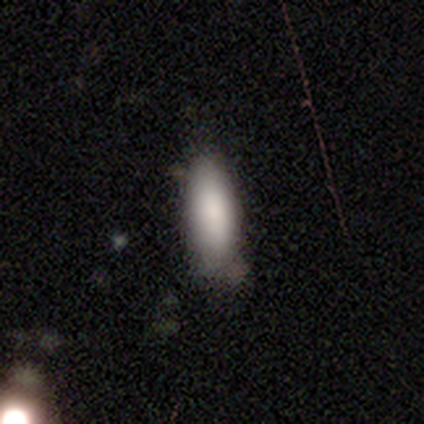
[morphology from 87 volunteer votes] Smooth or featured? 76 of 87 (87%) said smooth. How rounded? 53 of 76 (70%) said in between. Merging? 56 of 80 (70%) said none.